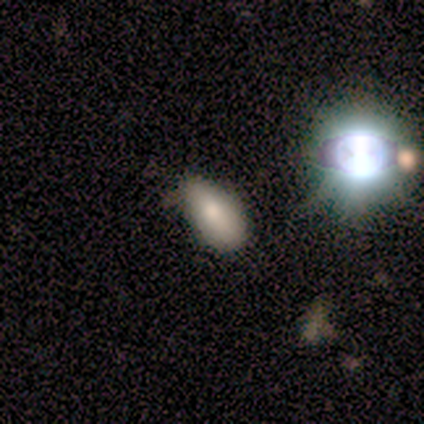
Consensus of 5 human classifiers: Smooth or featured? smooth (80%)
How rounded? in between (100%)
Merging? none (100%)